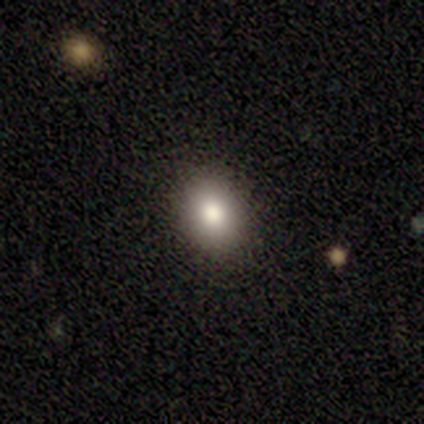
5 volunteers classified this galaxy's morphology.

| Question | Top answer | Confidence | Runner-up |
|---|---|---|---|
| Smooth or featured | smooth | 80% | featured or disk (20%) |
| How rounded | in between | 75% | round (25%) |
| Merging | none | 100% | — |